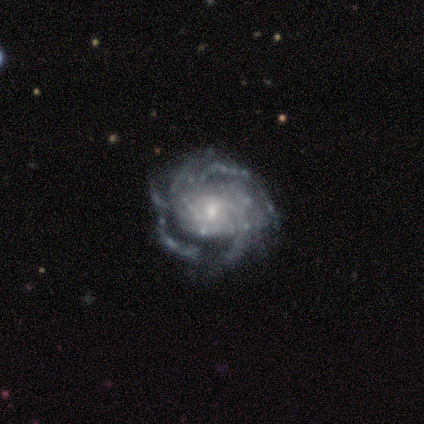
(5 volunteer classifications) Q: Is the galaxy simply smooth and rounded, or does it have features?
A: featured or disk — 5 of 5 (100%).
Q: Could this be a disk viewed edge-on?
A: no — 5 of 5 (100%).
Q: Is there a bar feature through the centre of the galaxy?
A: no — 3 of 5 (60%).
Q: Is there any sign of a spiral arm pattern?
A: yes — 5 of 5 (100%).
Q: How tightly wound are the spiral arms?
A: medium — 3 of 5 (60%).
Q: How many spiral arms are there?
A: can't tell — 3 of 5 (60%).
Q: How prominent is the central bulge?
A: small — 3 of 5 (60%).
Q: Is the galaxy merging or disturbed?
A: minor disturbance — 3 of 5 (60%).